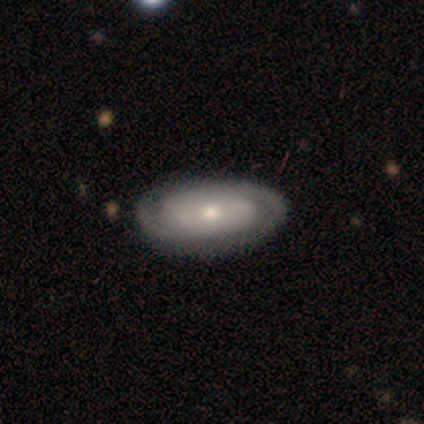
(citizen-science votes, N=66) Morphology: type=featured or disk (71%); edge-on=no (96%); bar=no (78%); spiral arms=yes (87%); winding=tight (72%); arm count=2 (92%); bulge=small (49%); merging=none (94%).